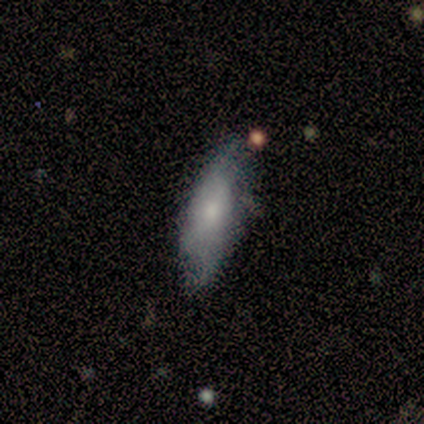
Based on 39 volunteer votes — A smooth galaxy with no disk features (67%) that is in between round and cigar-shaped (54%). Merging: none (57%).